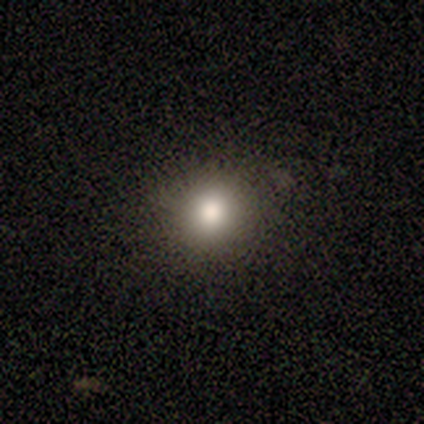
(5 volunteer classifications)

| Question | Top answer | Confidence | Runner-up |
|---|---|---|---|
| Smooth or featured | smooth | 80% | star or artifact (20%) |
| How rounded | round | 100% | — |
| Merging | none | 75% | minor disturbance (25%) |